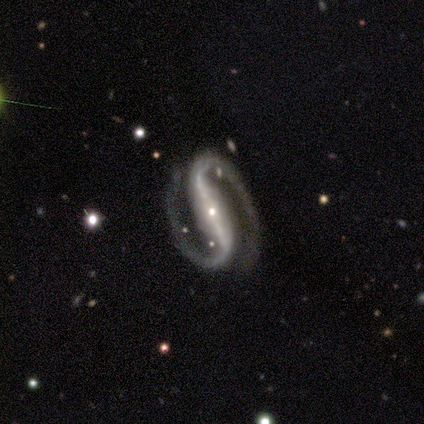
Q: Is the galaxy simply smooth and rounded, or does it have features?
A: featured or disk — 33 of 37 (89%).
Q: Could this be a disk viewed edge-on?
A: no — 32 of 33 (97%).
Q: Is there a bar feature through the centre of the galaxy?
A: strong — 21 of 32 (66%).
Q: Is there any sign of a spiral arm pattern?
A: yes — 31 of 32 (97%).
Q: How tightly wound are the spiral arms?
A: medium — 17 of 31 (55%).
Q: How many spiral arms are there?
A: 2 — 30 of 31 (97%).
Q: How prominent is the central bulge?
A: small — 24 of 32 (75%).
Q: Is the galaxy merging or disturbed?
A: none — 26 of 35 (74%).